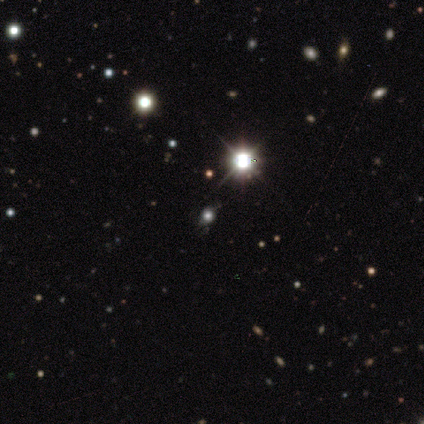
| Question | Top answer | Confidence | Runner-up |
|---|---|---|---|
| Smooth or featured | star or artifact | 67% | featured or disk (22%) |